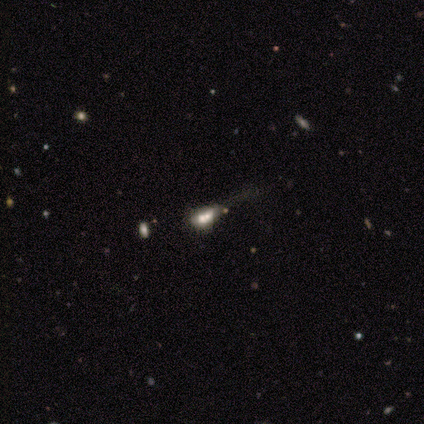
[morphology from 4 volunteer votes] A star or artifact, not a galaxy (50%).